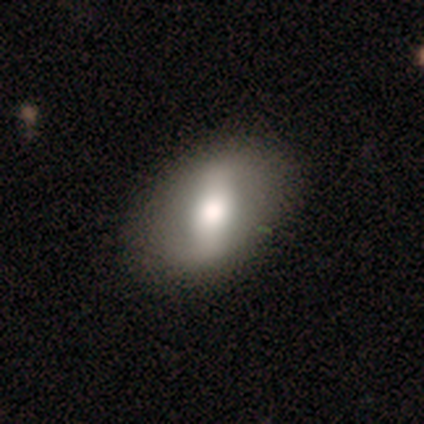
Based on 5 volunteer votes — smooth-or-featured: smooth: 80% | featured or disk: 20% | star or artifact: 0%
  how-rounded: in between: 75% | round: 25% | cigar-shaped: 0%
  merging: none: 100% | minor disturbance: 0% | major disturbance: 0% | merger: 0%